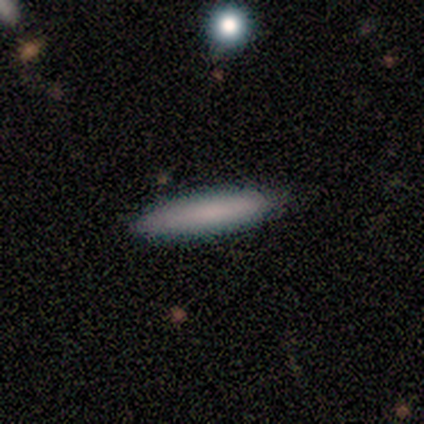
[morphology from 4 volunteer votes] Volunteers were most divided on "how rounded": cigar-shaped: 75%, in between: 25%, round: 0%. More confident: smooth or featured — smooth (100%); merging — none (100%).